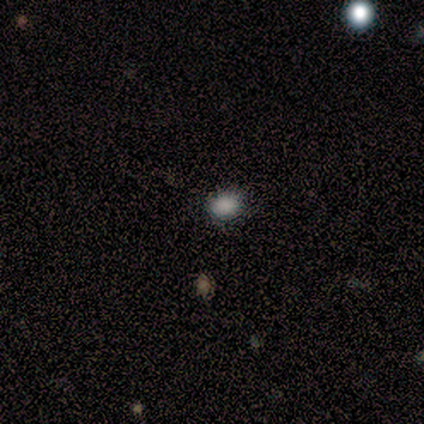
Smooth or featured? smooth (80%)
How rounded? round (50%, tied with in between)
Merging? none (75%)